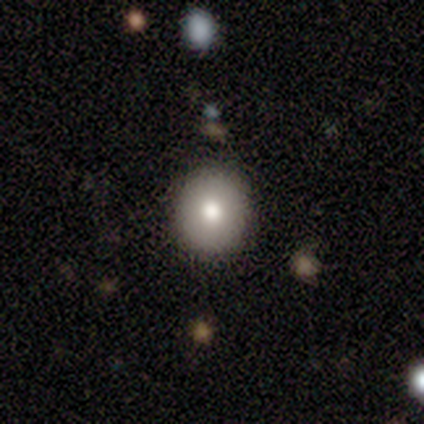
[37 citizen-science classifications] smooth 86%, featured or disk 11%, star or artifact 3%. Down the decision tree: how rounded — round (91%); merging — none (83%).